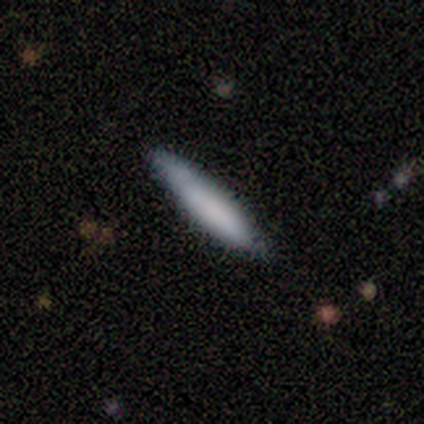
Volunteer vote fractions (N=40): Smooth or featured?
  - smooth: 80% *
  - featured or disk: 18%
  - star or artifact: 2%
How rounded?
  - cigar-shaped: 88% *
  - in between: 12%
  - round: 0%
Merging?
  - none: 82% *
  - minor disturbance: 13%
  - major disturbance: 3%
  - merger: 3%